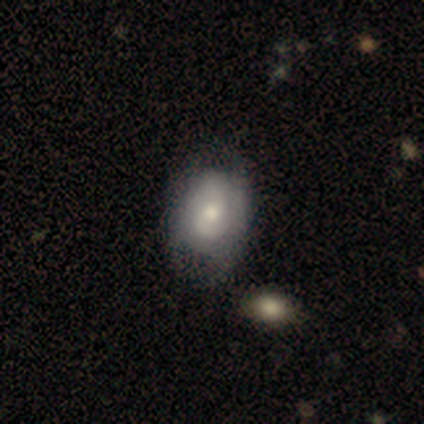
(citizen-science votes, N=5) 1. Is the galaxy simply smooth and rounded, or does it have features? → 60% smooth, 40% featured or disk, 0% star or artifact.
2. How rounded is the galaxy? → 67% in between, 33% round, 0% cigar-shaped.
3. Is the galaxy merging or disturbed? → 60% none, 40% minor disturbance, 0% major disturbance, 0% merger.